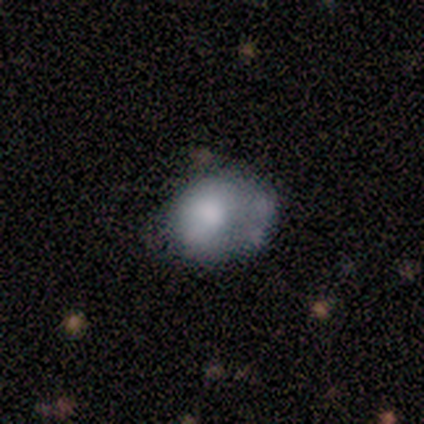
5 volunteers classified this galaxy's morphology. Overall: smooth (80%). How rounded: round (75%). Merging: minor disturbance (80%).